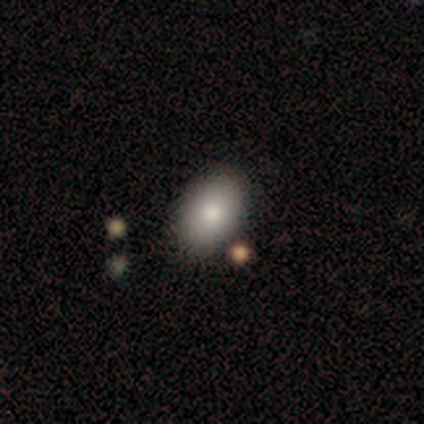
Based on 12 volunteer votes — Morphology: type=smooth (83%); roundness=in between (90%); merging=none (82%).